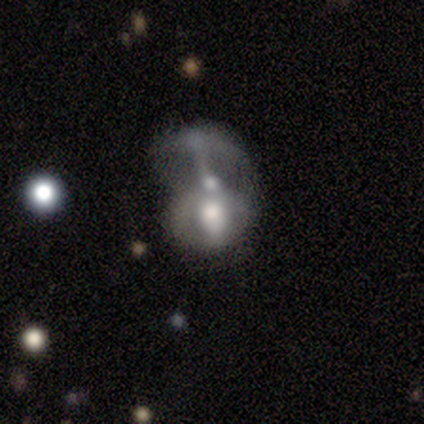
Smooth or featured? 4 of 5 (80%) said featured or disk. Edge-on disk? 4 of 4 (100%) said no. Bar? 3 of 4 (75%) said weak. Spiral arms? 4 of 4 (100%) said no. Bulge size? 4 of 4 (100%) said moderate. Merging? 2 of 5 (40%, tied with merger) said major disturbance.